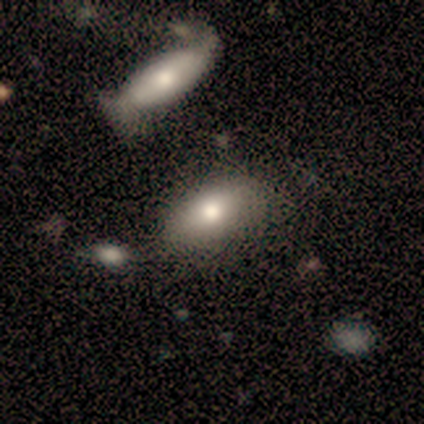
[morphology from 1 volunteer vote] smooth_or_featured: star or artifact (p=1.00)